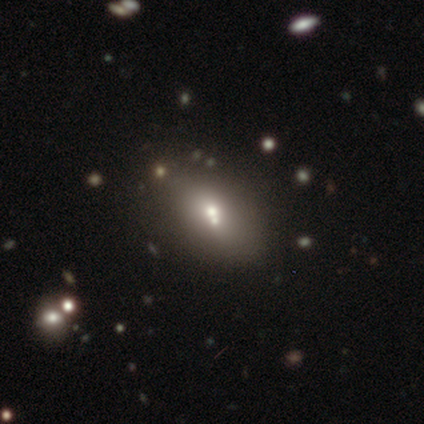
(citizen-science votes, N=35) Q: Smooth or featured?
A: smooth (66%); runner-up: star or artifact (23%)
Q: How rounded?
A: in between (83%); runner-up: round (13%)
Q: Merging?
A: merger (52%)